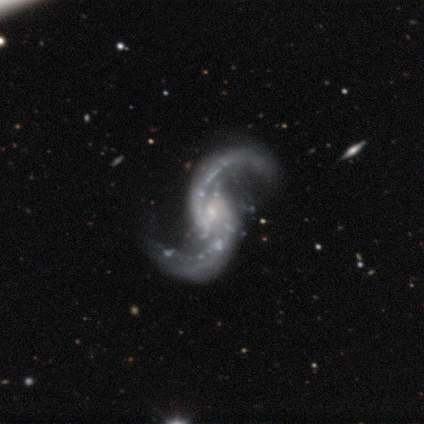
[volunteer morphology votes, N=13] Volunteers were most divided on "spiral winding": loose: 62%, medium: 38%, tight: 0%. More confident: smooth or featured — featured or disk (100%); edge-on disk — no (100%); spiral arms — yes (100%); spiral arm count — 2 (100%); merging — none (77%); bulge size — small (69%); bar — weak (54%).